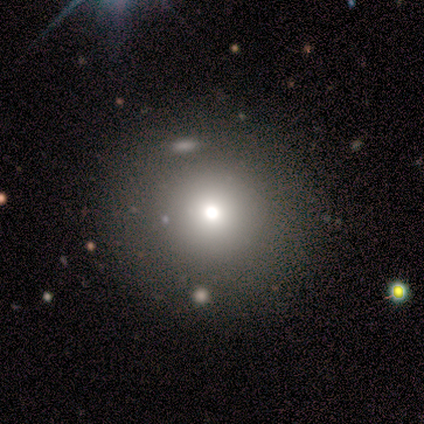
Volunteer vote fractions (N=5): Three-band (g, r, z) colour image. It shows a smooth galaxy with no disk features (60%) that is round (100%). Merging: none (75%).